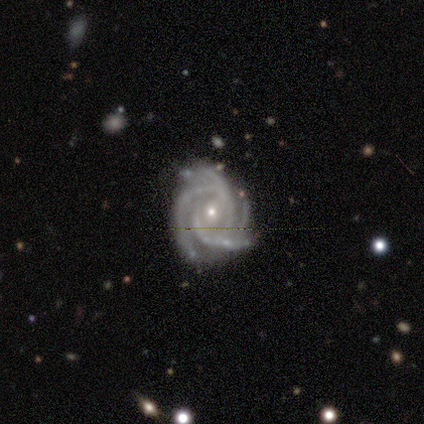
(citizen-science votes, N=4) This is clearly a featured or disk galaxy (100%). It is clearly not viewed edge-on (100%). Bar: possibly weak (50%, tied with no). Spiral arm pattern: clearly yes (100%). Spiral arm count: likely 4 (75%). Spiral winding: likely tight (75%). Central bulge: likely small (75%). Merging: likely none (75%).